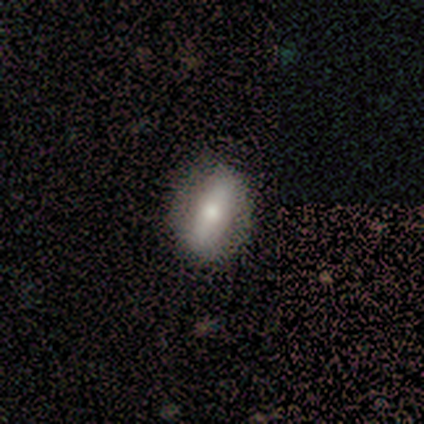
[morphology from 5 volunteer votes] smooth_or_featured: smooth (p=0.80) [alt: star or artifact p=0.20]
how_rounded: in between (p=0.50) [alt: round p=0.25]
merging: none (p=0.75) [alt: minor disturbance p=0.25]